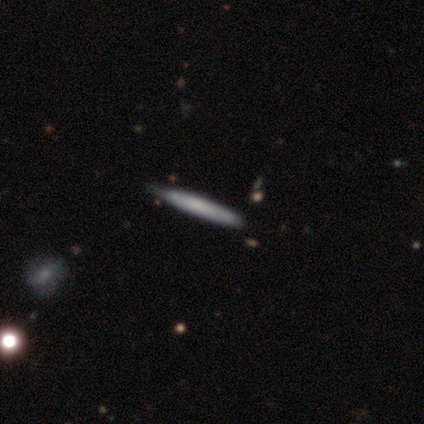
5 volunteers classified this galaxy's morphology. Smooth or featured?
  - featured or disk: 60% *
  - smooth: 20%
  - star or artifact: 20%
Edge-on disk?
  - yes: 100% *
  - no: 0%
Edge-on bulge?
  - none: 67% *
  - boxy: 33%
  - rounded: 0%
Merging?
  - none: 100% *
  - minor disturbance: 0%
  - major disturbance: 0%
  - merger: 0%